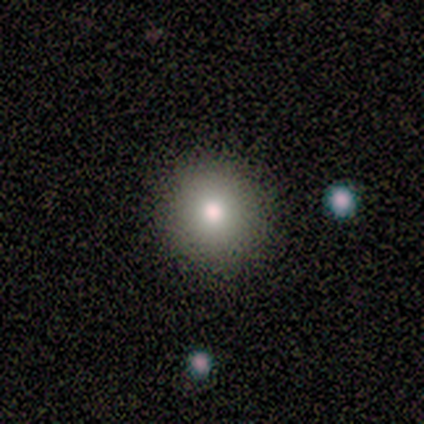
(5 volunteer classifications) Morphology: type=smooth (80%); roundness=round (100%); merging=none (75%).